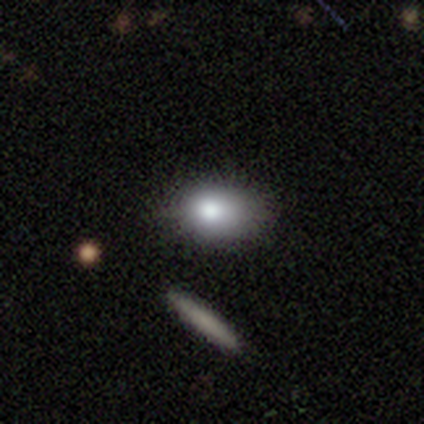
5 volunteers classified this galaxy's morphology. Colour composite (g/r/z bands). It shows a smooth galaxy with no disk features (80%) that is in between round and cigar-shaped (75%). Merging: none (100%).